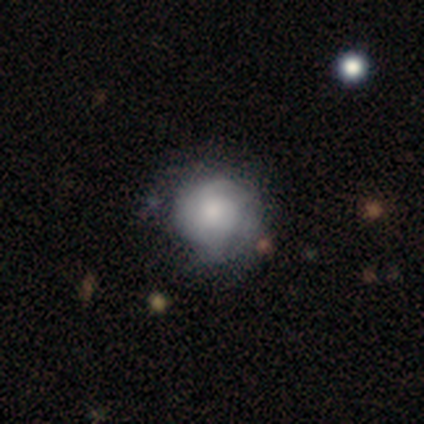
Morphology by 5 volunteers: Smooth or featured? smooth (100%)
How rounded? round (80%)
Merging? none (40%, tied with minor disturbance)